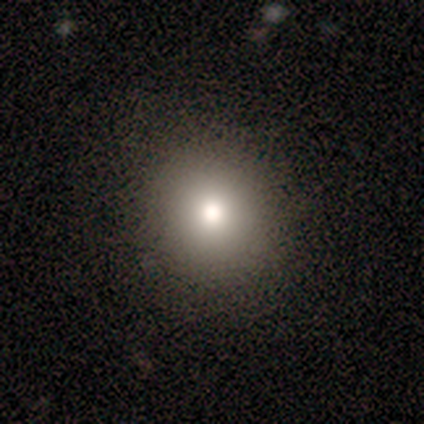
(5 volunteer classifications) A smooth galaxy with no disk features (100%) that is round (80%). Merging: none (80%).